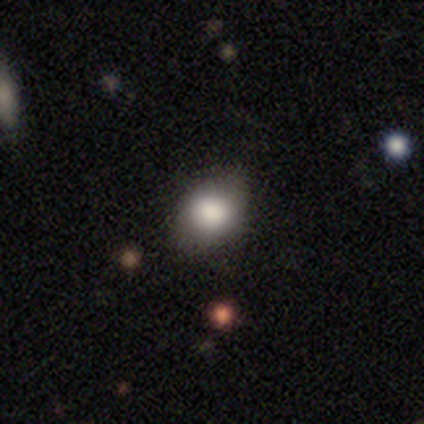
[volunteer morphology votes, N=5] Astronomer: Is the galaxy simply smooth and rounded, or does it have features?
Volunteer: smooth — 80%.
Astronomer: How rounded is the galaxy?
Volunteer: in between — 75%.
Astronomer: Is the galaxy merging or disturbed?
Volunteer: minor disturbance — 60%.